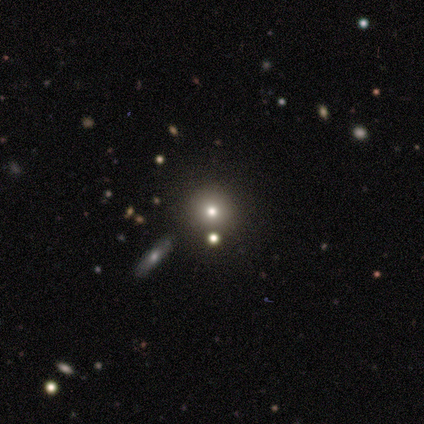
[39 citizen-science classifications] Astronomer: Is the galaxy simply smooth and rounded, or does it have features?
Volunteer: smooth — 59%.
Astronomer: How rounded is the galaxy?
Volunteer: round — 87%.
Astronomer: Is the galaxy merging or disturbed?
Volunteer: none — 87%.